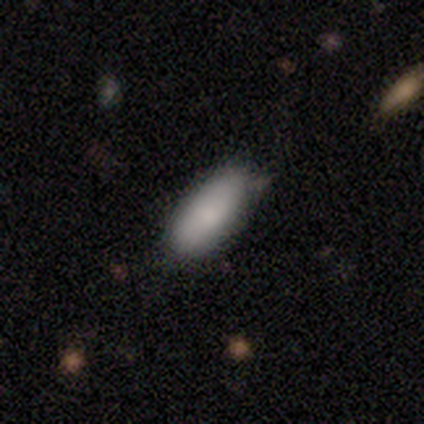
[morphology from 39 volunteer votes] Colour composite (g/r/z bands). It shows a smooth galaxy with no disk features (95%) that is in between round and cigar-shaped (78%). Merging: none (71%).